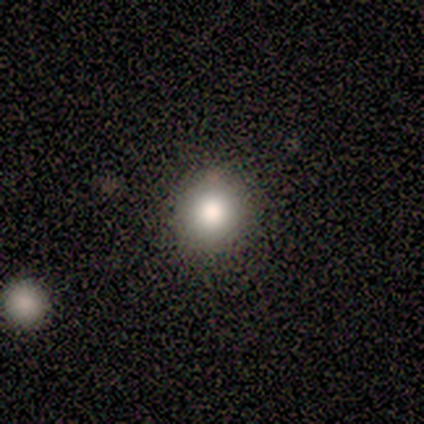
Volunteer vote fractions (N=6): A smooth galaxy with no disk features (50%, tied with star or artifact) that is round (100%). Merging: none (67%).